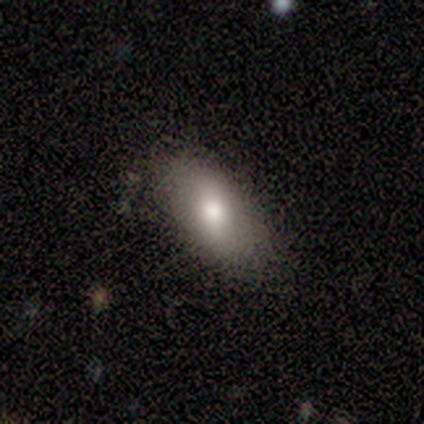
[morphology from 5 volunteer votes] smooth_or_featured: smooth (p=0.80) [alt: featured or disk p=0.20]
how_rounded: in between (p=1.00)
merging: none (p=0.80) [alt: merger p=0.20]